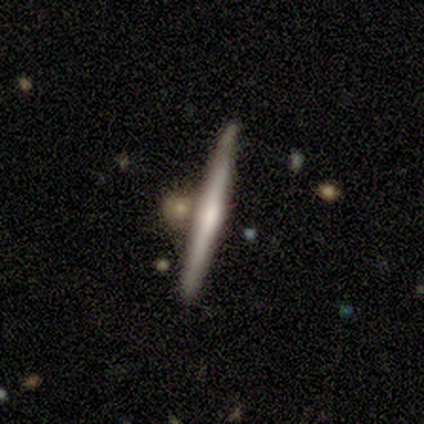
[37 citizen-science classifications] Smooth or featured?
  - featured or disk: 51% *
  - smooth: 35%
  - star or artifact: 14%
Edge-on disk?
  - yes: 100% *
  - no: 0%
Edge-on bulge?
  - rounded: 47% *
  - none: 37%
  - boxy: 16%
Merging?
  - none: 66% *
  - merger: 22%
  - minor disturbance: 9%
  - major disturbance: 3%